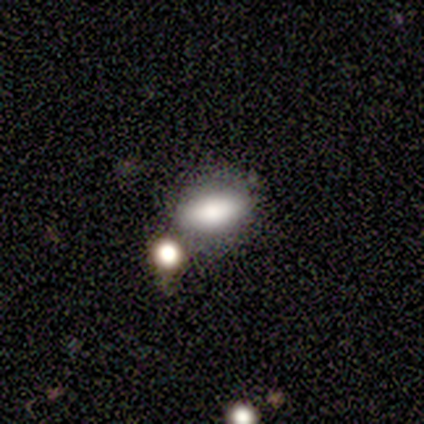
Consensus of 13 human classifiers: A smooth galaxy with no disk features (85%) that is in between round and cigar-shaped (82%). Merging: none (67%).